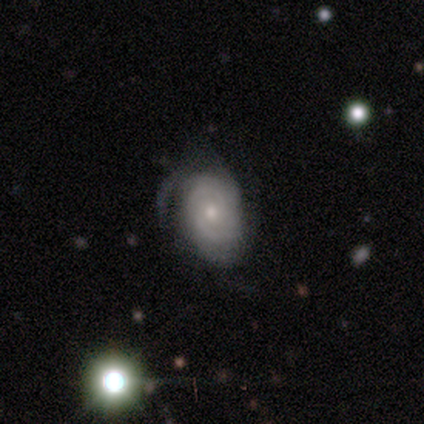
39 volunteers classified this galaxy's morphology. type=featured or disk (74%); edge-on=no (97%); bar=no (71%); spiral arms=yes (86%); winding=tight (67%); arm count=can't tell (42%); bulge=small (54%); merging=none (46%).